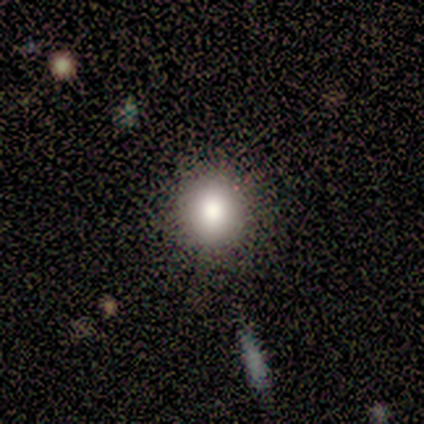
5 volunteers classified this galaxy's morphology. smooth 80%, star or artifact 20%, featured or disk 0%. Down the decision tree: how rounded — round (100%); merging — none (75%).